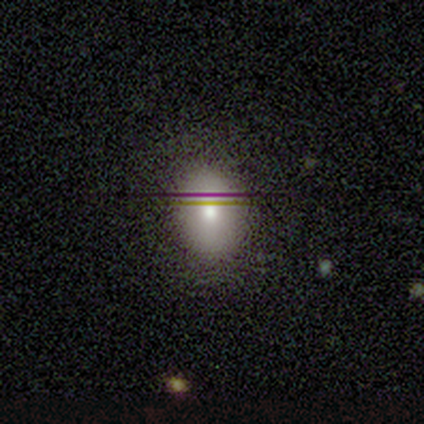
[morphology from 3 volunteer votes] Q: Smooth or featured?
A: smooth (67%); runner-up: featured or disk (33%)
Q: How rounded?
A: round (50%); tied with: in between (50%)
Q: Merging?
A: none (100%)